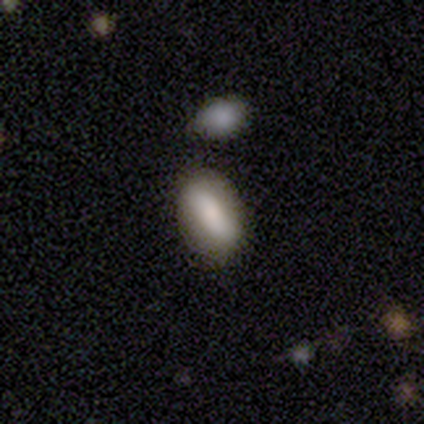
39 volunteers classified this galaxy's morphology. type=smooth (74%); roundness=in between (86%); merging=none (74%).